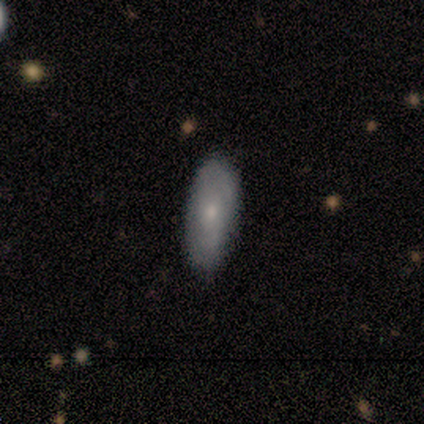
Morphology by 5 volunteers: Smooth or featured? 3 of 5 (60%) said smooth. How rounded? 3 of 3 (100%) said in between. Merging? 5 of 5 (100%) said none.